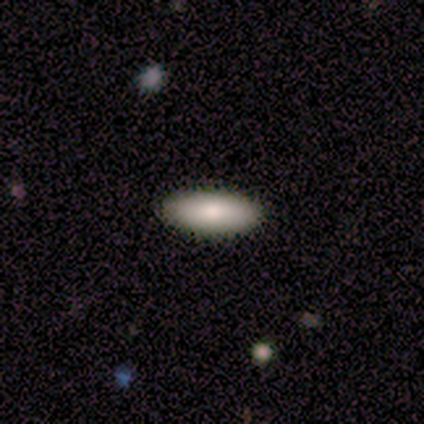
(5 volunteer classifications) Smooth or featured?
  - smooth: 80% *
  - star or artifact: 20%
  - featured or disk: 0%
How rounded?
  - in between: 50% * (tied)
  - cigar-shaped: 50% * (tied)
  - round: 0%
Merging?
  - none: 100% *
  - minor disturbance: 0%
  - major disturbance: 0%
  - merger: 0%